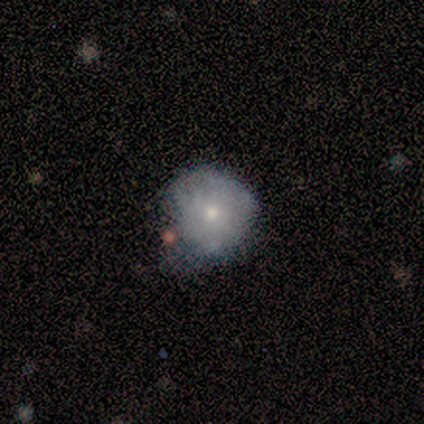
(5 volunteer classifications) Overall: featured or disk (60%; smooth 40%). Edge-on disk: no (100%). Bar: no (100%). Spiral arms: no (100%). Bulge size: moderate (67%; small 33%). Merging: minor disturbance (60%; none 20%).